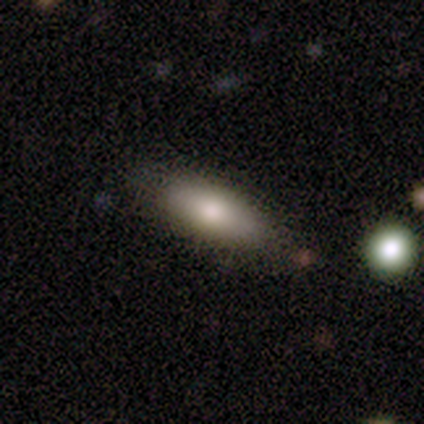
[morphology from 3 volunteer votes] smooth 67%, star or artifact 33%, featured or disk 0%. Down the decision tree: how rounded — in between (100%); merging — none (50%, tied with major disturbance).